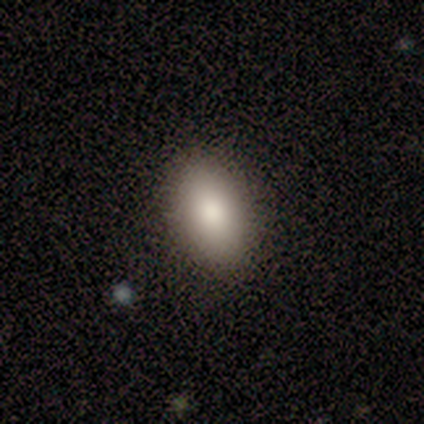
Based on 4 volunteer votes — A smooth galaxy with no disk features (75%) that is in between round and cigar-shaped (100%). Merging: none (100%).